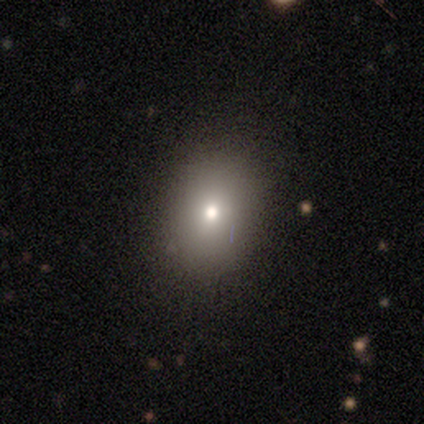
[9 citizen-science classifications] smooth 67%, star or artifact 22%, featured or disk 11%. Down the decision tree: how rounded — round (50%, tied with in between); merging — none (86%).